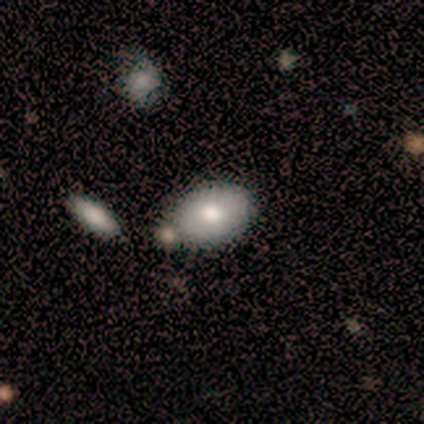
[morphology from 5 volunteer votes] Smooth or featured? smooth (80%)
How rounded? in between (100%)
Merging? none (80%)